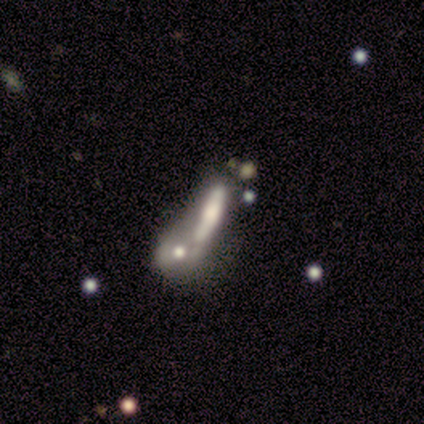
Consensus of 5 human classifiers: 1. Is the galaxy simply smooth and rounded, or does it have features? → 60% smooth, 40% featured or disk, 0% star or artifact.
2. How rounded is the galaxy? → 67% in between, 33% cigar-shaped, 0% round.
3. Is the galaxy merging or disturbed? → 60% merger, 20% none, 20% minor disturbance, 0% major disturbance.